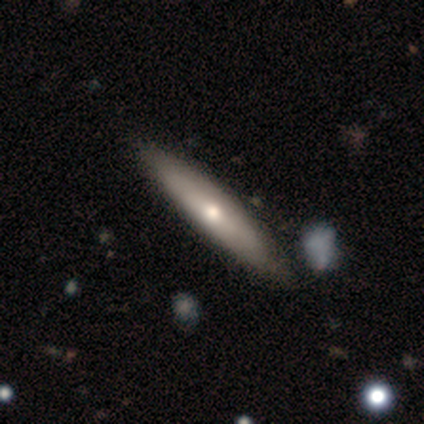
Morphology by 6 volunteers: Volunteers were most divided on "smooth or featured": featured or disk: 67%, smooth: 33%, star or artifact: 0%. More confident: bar — no (100%); spiral arms — no (100%); merging — none (100%); edge-on disk — no (75%); bulge size — small (67%).